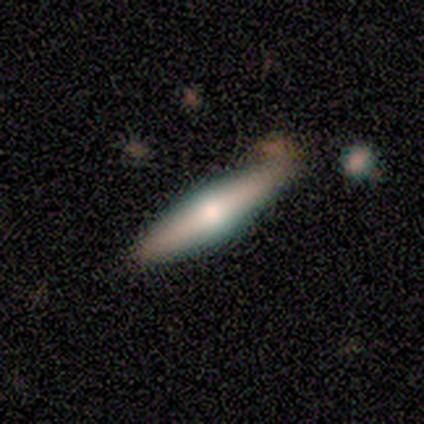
Smooth or featured?
  - featured or disk: 80% *
  - smooth: 20%
  - star or artifact: 0%
Edge-on disk?
  - yes: 75% *
  - no: 25%
Edge-on bulge?
  - rounded: 100% *
  - boxy: 0%
  - none: 0%
Merging?
  - none: 60% *
  - minor disturbance: 40%
  - major disturbance: 0%
  - merger: 0%